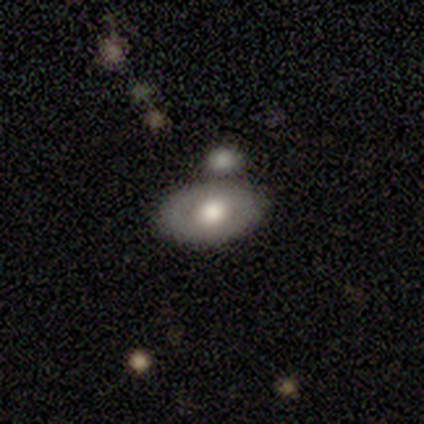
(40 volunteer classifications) Morphology: type=smooth (50%); roundness=in between (85%); merging=none (61%).